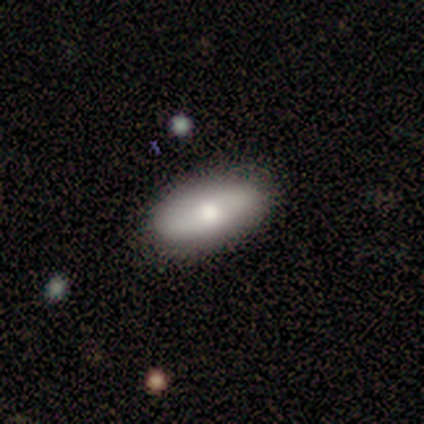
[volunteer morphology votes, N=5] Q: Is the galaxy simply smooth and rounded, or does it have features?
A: featured or disk — 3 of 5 (60%).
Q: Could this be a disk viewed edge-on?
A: no — 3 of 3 (100%).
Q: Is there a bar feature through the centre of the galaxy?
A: no — 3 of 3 (100%).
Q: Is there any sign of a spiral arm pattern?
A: no — 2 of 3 (67%).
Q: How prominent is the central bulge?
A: moderate — 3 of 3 (100%).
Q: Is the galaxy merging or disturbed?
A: none — 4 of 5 (80%).